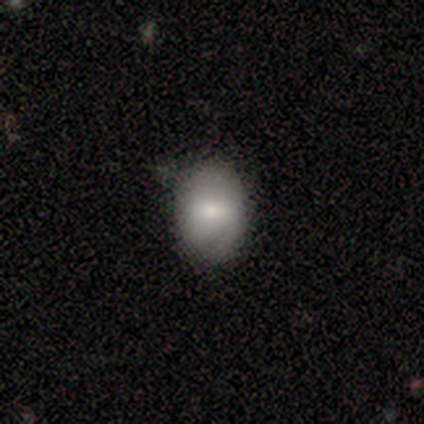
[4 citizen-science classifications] Smooth or featured? smooth (50%)
How rounded? in between (100%)
Merging? none (67%)